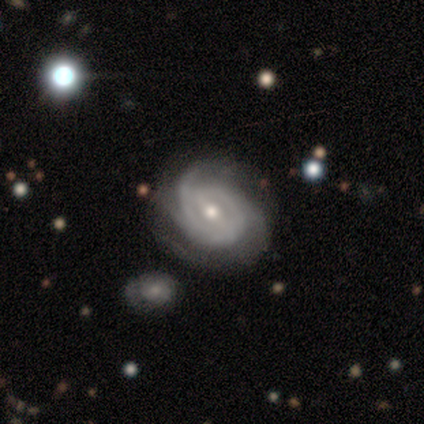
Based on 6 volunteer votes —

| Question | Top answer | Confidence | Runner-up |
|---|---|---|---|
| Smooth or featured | featured or disk | 100% | — |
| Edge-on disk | no | 100% | — |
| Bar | weak | 67% | strong (33%) |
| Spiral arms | yes | 83% | no (17%) |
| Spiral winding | tight | 80% | medium (20%) |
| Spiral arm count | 2 | 60% | 3 (40%) |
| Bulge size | moderate | 67% | small (33%) |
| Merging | none | 100% | — |